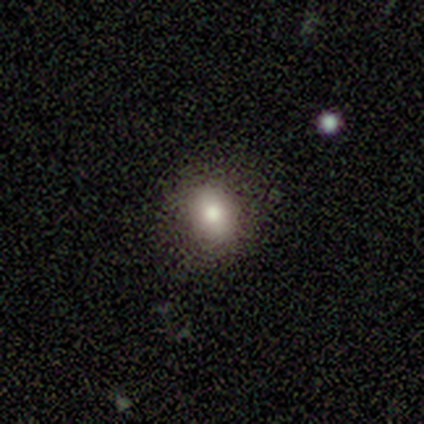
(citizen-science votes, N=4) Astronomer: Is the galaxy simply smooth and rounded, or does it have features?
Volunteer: smooth — 50%.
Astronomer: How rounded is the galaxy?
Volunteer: round — 50%, tied with in between at 50%.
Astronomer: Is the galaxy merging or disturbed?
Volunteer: none — 67%.